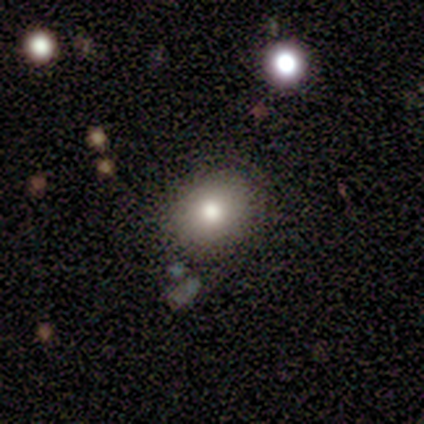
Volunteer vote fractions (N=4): A smooth galaxy with no disk features (100%) that is round (75%).

Vote fractions:
- Smooth or featured? smooth: 100% / featured or disk: 0% / star or artifact: 0%
- How rounded? round: 75% / in between: 25% / cigar-shaped: 0%
- Merging? none: 100% / minor disturbance: 0% / major disturbance: 0% / merger: 0%